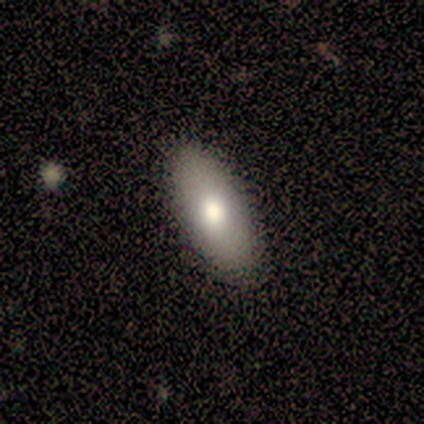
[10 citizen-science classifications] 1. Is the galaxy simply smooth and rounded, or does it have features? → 80% smooth, 20% featured or disk, 0% star or artifact.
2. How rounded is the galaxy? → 75% in between, 25% cigar-shaped, 0% round.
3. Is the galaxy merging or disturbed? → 90% none, 10% minor disturbance, 0% major disturbance, 0% merger.